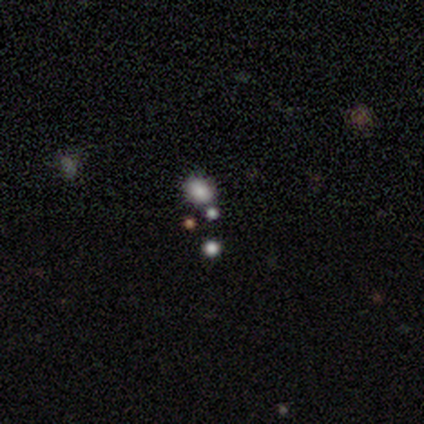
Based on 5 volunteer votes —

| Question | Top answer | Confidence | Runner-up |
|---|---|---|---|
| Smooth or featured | smooth | 60% | featured or disk (20%) |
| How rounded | round | 67% | in between (33%) |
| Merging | none | 75% | minor disturbance (25%) |